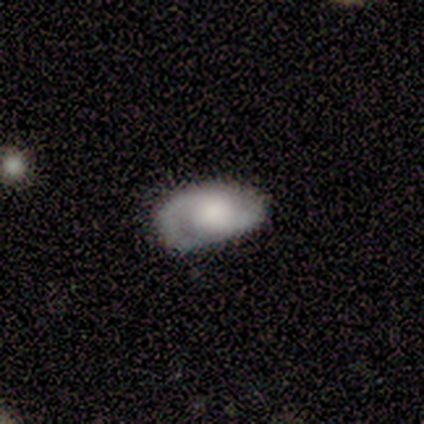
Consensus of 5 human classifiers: smooth-or-featured: featured or disk: 60% | smooth: 40% | star or artifact: 0%
  disk-edge-on: no: 100% | yes: 0%
    bar: no: 67% | weak: 33% | strong: 0%
    has-spiral-arms: yes: 100% | no: 0%
      spiral-winding: tight: 67% | medium: 33% | loose: 0%
      spiral-arm-count: 2: 100% | 1: 0% | 3: 0% | 4: 0% | more than 4: 0% | can't tell: 0%
    bulge-size: small: 67% | moderate: 33% | dominant: 0% | large: 0% | none: 0%
  merging: none: 60% | minor disturbance: 40% | major disturbance: 0% | merger: 0%